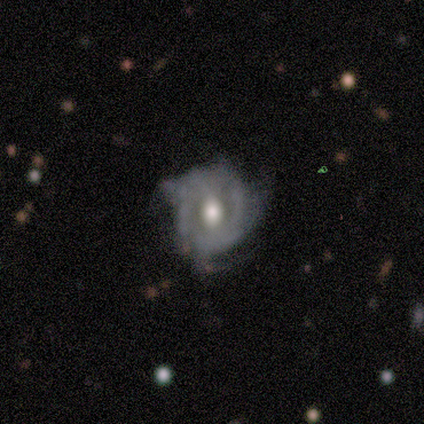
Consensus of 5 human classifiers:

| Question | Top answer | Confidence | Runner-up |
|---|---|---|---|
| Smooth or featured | featured or disk | 100% | — |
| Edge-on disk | no | 100% | — |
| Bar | no | 60% | weak (40%) |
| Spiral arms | no | 80% | yes (20%) |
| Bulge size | moderate | 100% | — |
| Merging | minor disturbance | 80% | none (20%) |